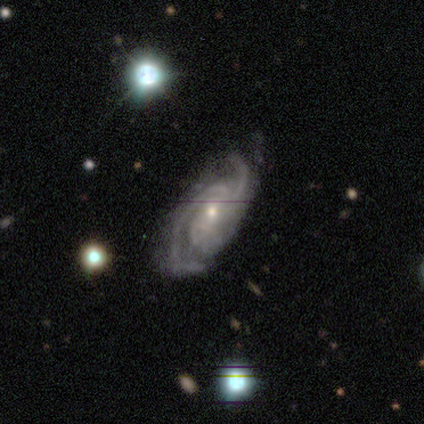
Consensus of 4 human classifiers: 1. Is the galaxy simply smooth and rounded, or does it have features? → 100% featured or disk, 0% smooth, 0% star or artifact.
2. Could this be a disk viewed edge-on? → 100% no, 0% yes.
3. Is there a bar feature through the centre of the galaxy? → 75% no, 25% weak, 0% strong.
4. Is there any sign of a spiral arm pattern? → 100% yes, 0% no.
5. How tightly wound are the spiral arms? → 50% tight (tied), 50% medium (tied), 0% loose.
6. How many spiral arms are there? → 75% 2, 25% 3, 0% 1, 0% 4, 0% more than 4, 0% can't tell.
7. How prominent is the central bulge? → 50% moderate (tied), 50% small (tied), 0% dominant, 0% large, 0% none.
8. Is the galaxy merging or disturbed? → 75% none, 25% minor disturbance, 0% major disturbance, 0% merger.